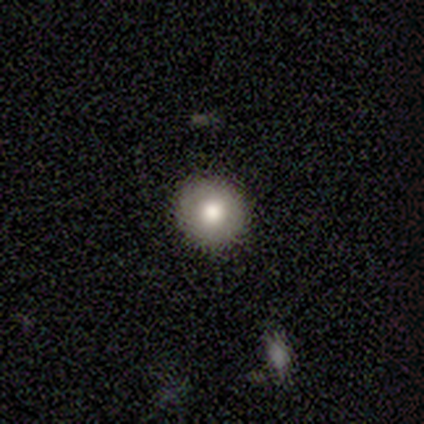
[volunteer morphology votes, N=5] This is likely a featured or disk galaxy (60%). It is likely not viewed edge-on (67%). Bar: clearly no (100%). Spiral arm pattern: clearly no (100%). Central bulge: clearly moderate (100%). Merging: likely none (60%).